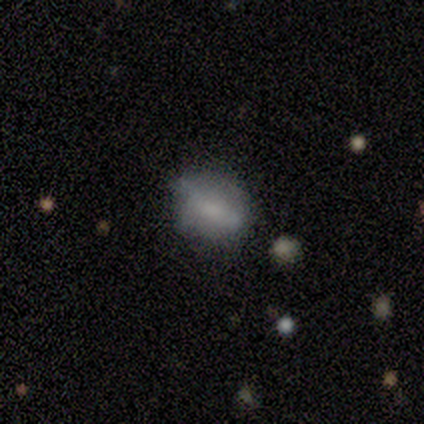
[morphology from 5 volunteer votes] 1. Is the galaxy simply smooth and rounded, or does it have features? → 60% smooth, 40% featured or disk, 0% star or artifact.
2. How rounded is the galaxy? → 67% in between, 33% round, 0% cigar-shaped.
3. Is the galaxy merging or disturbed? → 80% none, 20% minor disturbance, 0% major disturbance, 0% merger.